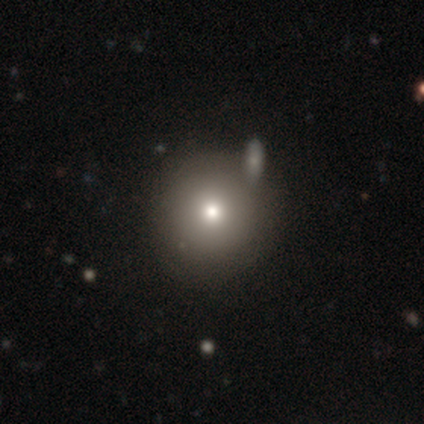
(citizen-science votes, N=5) A smooth galaxy with no disk features (60%) that is round (100%).

Vote fractions:
- Smooth or featured? smooth: 60% / featured or disk: 20% / star or artifact: 20%
- How rounded? round: 100% / in between: 0% / cigar-shaped: 0%
- Merging? none: 50% (tied) / merger: 50% (tied) / minor disturbance: 0% / major disturbance: 0%